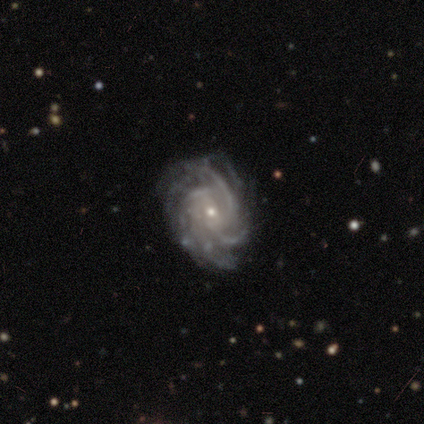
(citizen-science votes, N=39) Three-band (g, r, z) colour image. It shows a featured or disk galaxy (100%) with no bar (46%), tight (74%) spiral arms (100%) and a small central bulge (74%). Merging: none (79%).